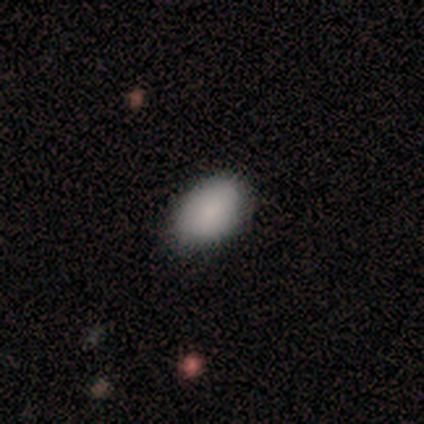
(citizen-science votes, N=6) Smooth or featured? smooth (100%)
How rounded? in between (100%)
Merging? none (50%, tied with minor disturbance)